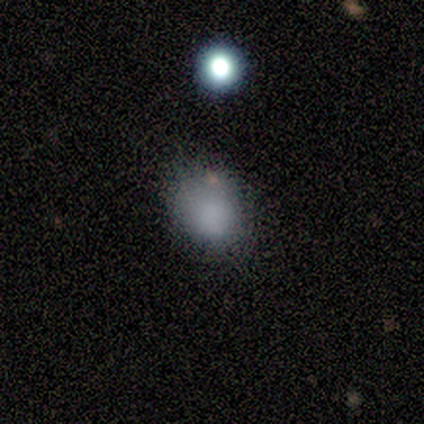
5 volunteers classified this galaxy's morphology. This is clearly a smooth galaxy (100%). How rounded: likely in between (60%). Merging: likely none (60%).